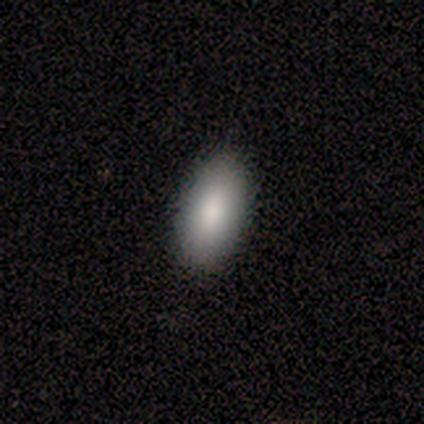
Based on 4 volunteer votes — Consensus on every question: smooth or featured — smooth (100%); how rounded — in between (100%); merging — none (100%).